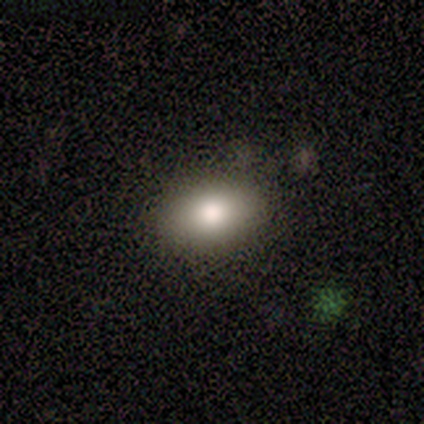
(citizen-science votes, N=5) smooth 60%, star or artifact 40%, featured or disk 0%. Down the decision tree: how rounded — round (67%); merging — none (100%).